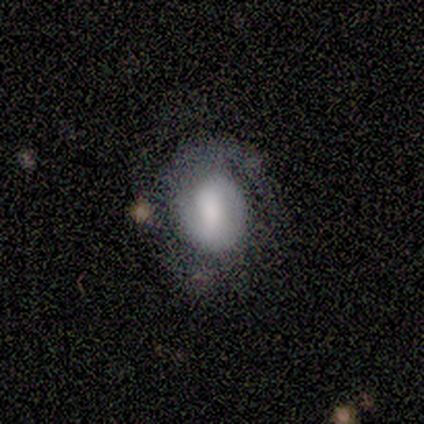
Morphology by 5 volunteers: This is clearly a featured or disk galaxy (80%). It is clearly not viewed edge-on (100%). Bar: clearly weak (100%). Spiral arm pattern: possibly yes (50%, tied with no). Spiral arm count: clearly 1 (100%). Spiral winding: possibly tight (50%, tied with medium). Central bulge: possibly large (50%). Merging: clearly none (80%).